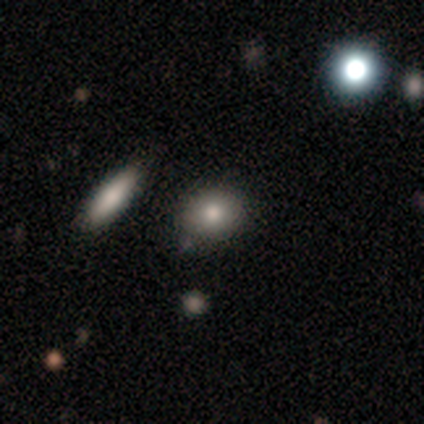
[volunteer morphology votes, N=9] A smooth galaxy with no disk features (67%) that is round (50%, tied with in between).

Vote fractions:
- Smooth or featured? smooth: 67% / star or artifact: 22% / featured or disk: 11%
- How rounded? round: 50% (tied) / in between: 50% (tied) / cigar-shaped: 0%
- Merging? none: 86% / minor disturbance: 14% / major disturbance: 0% / merger: 0%